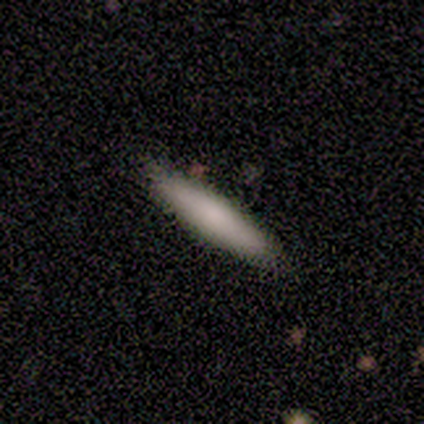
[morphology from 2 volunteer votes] Smooth or featured? smooth (100%)
How rounded? cigar-shaped (100%)
Merging? none (50%, tied with minor disturbance)